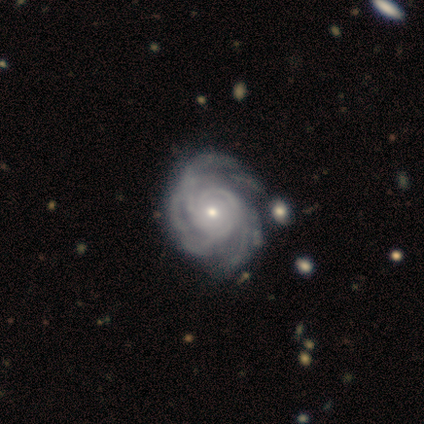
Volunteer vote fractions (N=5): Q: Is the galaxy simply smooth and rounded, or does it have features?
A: featured or disk — 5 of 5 (100%).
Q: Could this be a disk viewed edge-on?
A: no — 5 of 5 (100%).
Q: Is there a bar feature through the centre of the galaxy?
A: no — 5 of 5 (100%).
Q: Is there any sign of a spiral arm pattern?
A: yes — 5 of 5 (100%).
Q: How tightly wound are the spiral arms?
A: tight — 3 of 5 (60%).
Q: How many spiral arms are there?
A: more than 4 — 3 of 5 (60%).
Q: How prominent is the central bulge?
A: small — 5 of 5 (100%).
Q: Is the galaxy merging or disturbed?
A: none — 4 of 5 (80%).